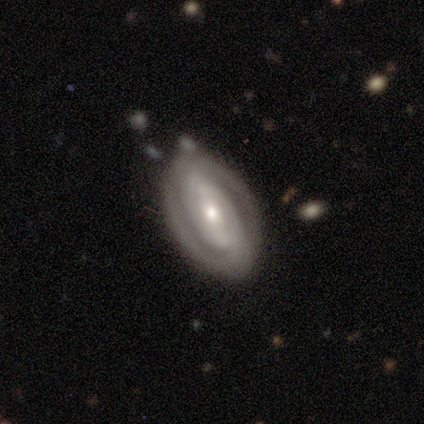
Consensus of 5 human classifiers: Q: Smooth or featured?
A: featured or disk (80%); runner-up: smooth (20%)
Q: Edge-on disk?
A: no (100%)
Q: Bar?
A: strong (75%); runner-up: no (25%)
Q: Spiral arms?
A: yes (100%)
Q: Spiral winding?
A: tight (75%); runner-up: loose (25%)
Q: Spiral arm count?
A: 2 (75%); runner-up: can't tell (25%)
Q: Bulge size?
A: small (75%); runner-up: moderate (25%)
Q: Merging?
A: none (80%); runner-up: minor disturbance (20%)